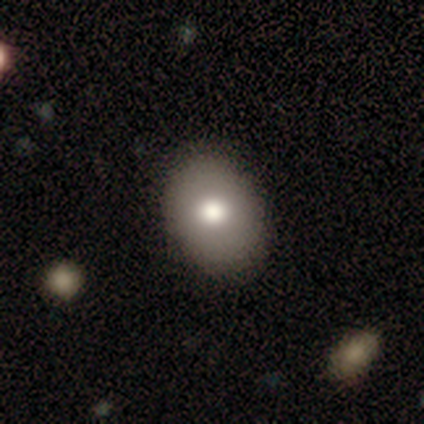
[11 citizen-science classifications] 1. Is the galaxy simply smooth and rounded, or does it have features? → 91% smooth, 9% featured or disk, 0% star or artifact.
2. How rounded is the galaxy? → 70% in between, 30% round, 0% cigar-shaped.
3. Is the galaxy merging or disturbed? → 82% none, 18% minor disturbance, 0% major disturbance, 0% merger.